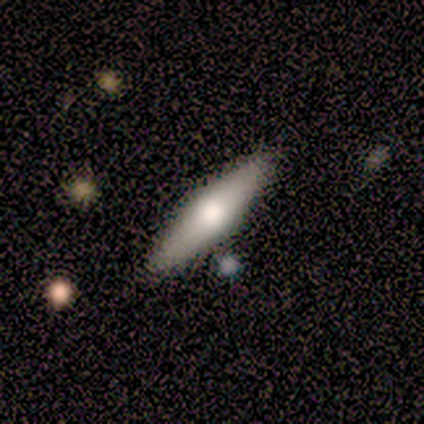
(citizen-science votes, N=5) This is likely a featured or disk galaxy (60%). It is likely viewed edge-on (67%). Edge-on bulge: clearly rounded (100%). Merging: clearly none (100%).